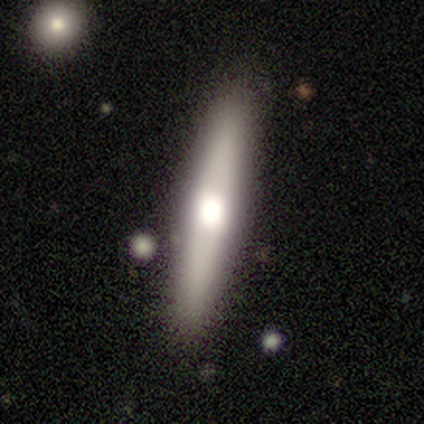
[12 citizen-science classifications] Q: Smooth or featured?
A: smooth (50%); runner-up: featured or disk (42%)
Q: How rounded?
A: cigar-shaped (83%); runner-up: in between (17%)
Q: Merging?
A: none (73%); runner-up: minor disturbance (18%)